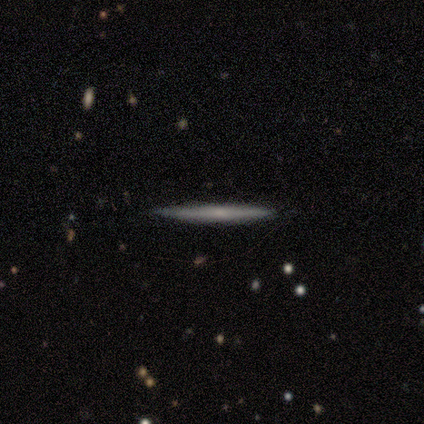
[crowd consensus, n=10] Smooth or featured? featured or disk (70%)
Edge-on disk? yes (100%)
Edge-on bulge? none (71%)
Merging? none (90%)